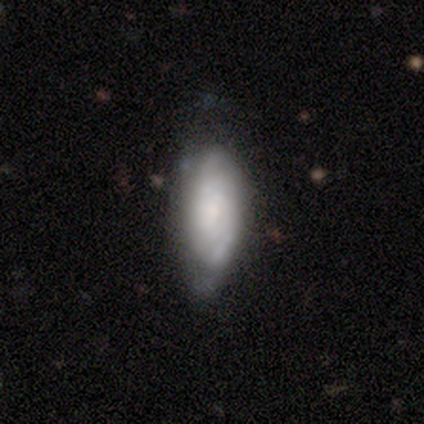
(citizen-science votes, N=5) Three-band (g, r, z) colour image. It shows a featured or disk galaxy (60%) with a weak bar (50%, tied with no), 2 (100%) tight (100%) spiral arms (100%) and a small central bulge (100%). Merging: none (75%).